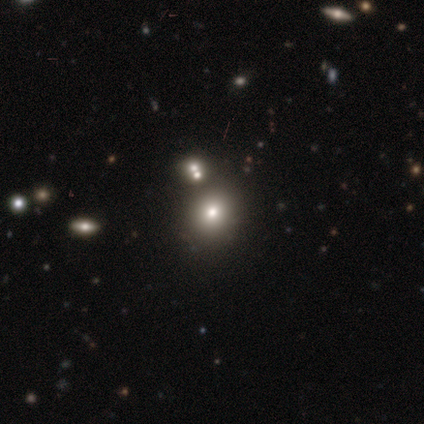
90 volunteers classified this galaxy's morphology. type=smooth (58%); roundness=round (69%); merging=none (81%).